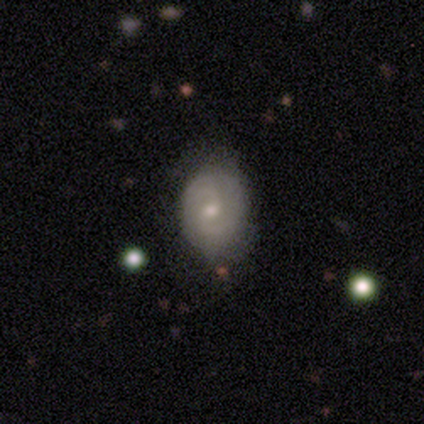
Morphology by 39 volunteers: smooth_or_featured: featured or disk (p=0.64) [alt: smooth p=0.31]
disk_edge_on: no (p=0.96) [alt: yes p=0.04]
bar: no (p=0.58) [alt: weak p=0.42]
has_spiral_arms: yes (p=0.96) [alt: no p=0.04]
spiral_winding: medium (p=0.48) [alt: tight p=0.39]
spiral_arm_count: 2 (p=0.78) [alt: can't tell p=0.17]
bulge_size: small (p=0.54) [alt: moderate p=0.46]
merging: none (p=0.78) [alt: minor disturbance p=0.19]